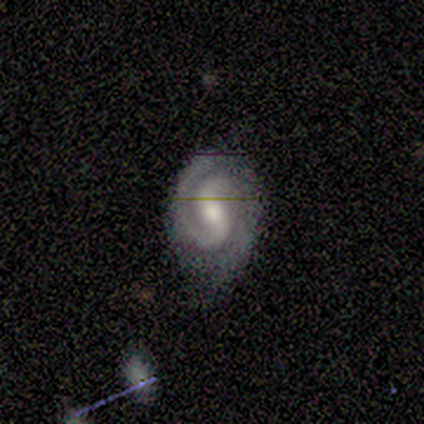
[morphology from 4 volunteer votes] A featured or disk galaxy (75%) with a weak bar (67%), 2 (100%) tight (67%) spiral arms (100%) and a moderate central bulge (100%). Merging: none (67%).